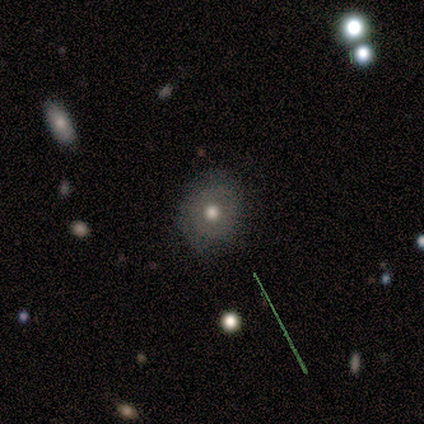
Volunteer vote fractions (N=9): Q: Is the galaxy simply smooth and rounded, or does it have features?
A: smooth — 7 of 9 (78%).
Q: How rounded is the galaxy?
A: round — 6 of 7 (86%).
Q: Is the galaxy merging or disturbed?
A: none — 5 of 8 (62%).